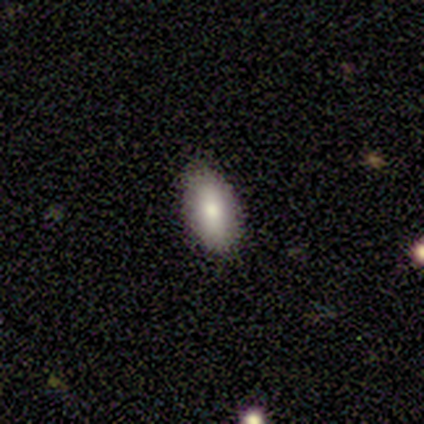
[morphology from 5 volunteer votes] This appears to be a smooth galaxy with no disk features (100%) that is in between round and cigar-shaped (80%). Merging: none (60%).